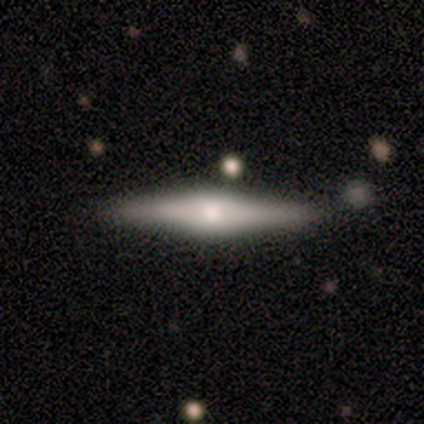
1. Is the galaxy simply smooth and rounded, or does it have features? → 79% featured or disk, 18% smooth, 3% star or artifact.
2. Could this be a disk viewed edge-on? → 100% yes, 0% no.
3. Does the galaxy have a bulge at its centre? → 81% rounded, 16% boxy, 3% none.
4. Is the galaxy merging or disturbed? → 79% none, 18% minor disturbance, 3% merger, 0% major disturbance.